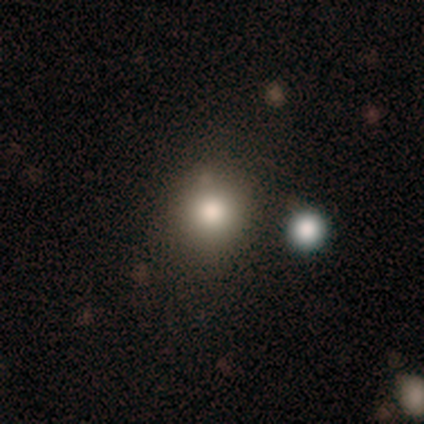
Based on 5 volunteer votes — Smooth or featured?
  - smooth: 100% *
  - featured or disk: 0%
  - star or artifact: 0%
How rounded?
  - round: 100% *
  - in between: 0%
  - cigar-shaped: 0%
Merging?
  - none: 100% *
  - minor disturbance: 0%
  - major disturbance: 0%
  - merger: 0%